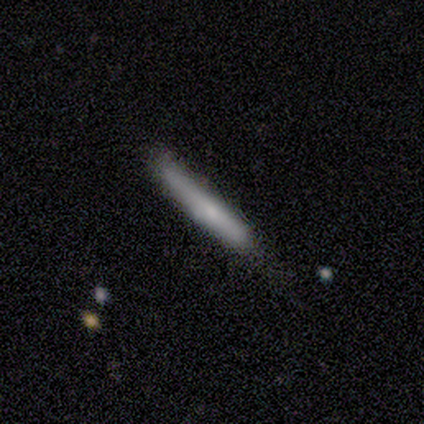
This appears to be a featured or disk galaxy (80%) viewed edge-on (75%) with a rounded central bulge (67%). Merging: none (40%, tied with minor disturbance).